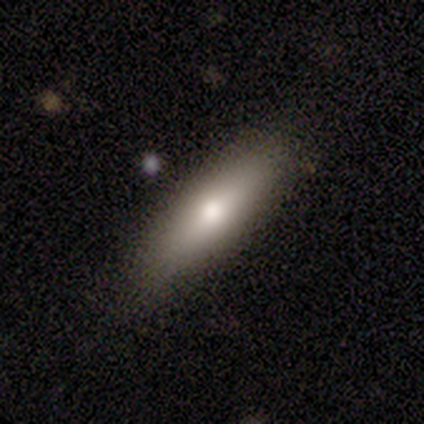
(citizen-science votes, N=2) smooth-or-featured: smooth: 100% | featured or disk: 0% | star or artifact: 0%
  how-rounded: cigar-shaped: 100% | round: 0% | in between: 0%
  merging: none: 100% | minor disturbance: 0% | major disturbance: 0% | merger: 0%